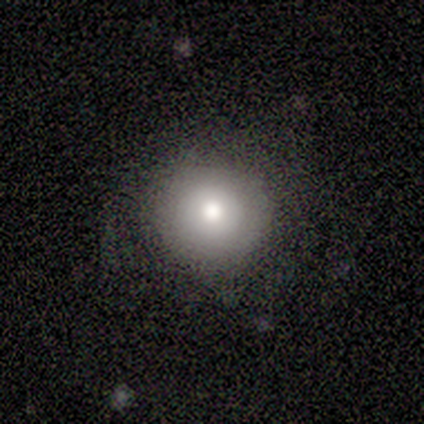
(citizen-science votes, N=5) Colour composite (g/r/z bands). It shows a smooth galaxy with no disk features (80%) that is round (100%). Merging: none (100%).